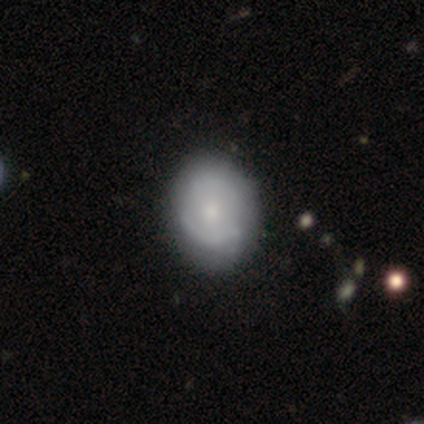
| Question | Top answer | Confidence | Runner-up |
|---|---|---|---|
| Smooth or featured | featured or disk | 51% | smooth (49%) |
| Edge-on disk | no | 100% | — |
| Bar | no | 80% | strong (10%) |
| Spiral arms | yes | 55% | no (45%) |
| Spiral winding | tight | 45% | tied: medium (45%) |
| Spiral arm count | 2 | 45% | can't tell (36%) |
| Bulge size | moderate | 45% | small (40%) |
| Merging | none | 54% | minor disturbance (18%) |